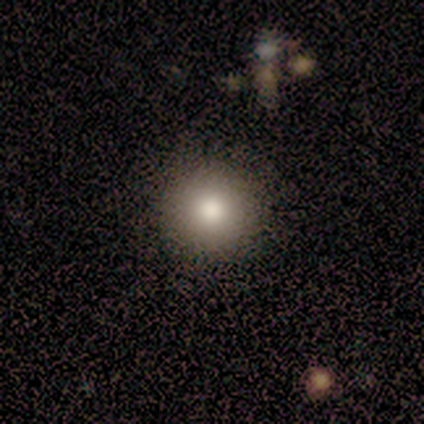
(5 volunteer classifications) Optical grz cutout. It shows a smooth galaxy with no disk features (60%) that is round (100%). Merging: none (80%).